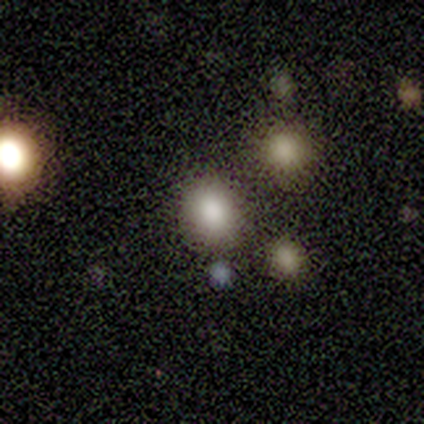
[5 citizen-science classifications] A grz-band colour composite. It shows a smooth galaxy with no disk features (80%) that is in between round and cigar-shaped (75%). Merging: none (100%).